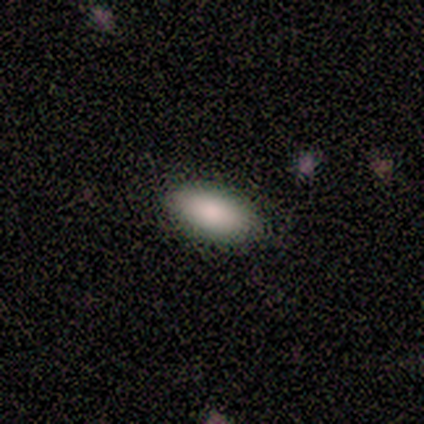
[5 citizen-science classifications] This is clearly a smooth galaxy (100%). How rounded: clearly in between (100%). Merging: likely none (60%).